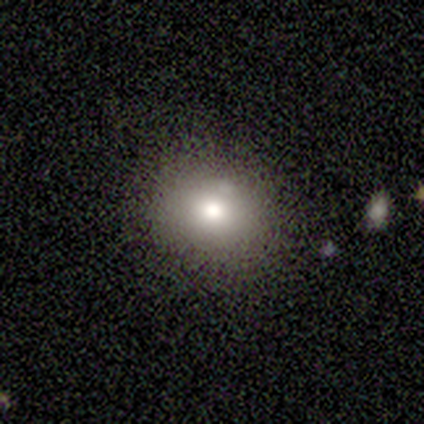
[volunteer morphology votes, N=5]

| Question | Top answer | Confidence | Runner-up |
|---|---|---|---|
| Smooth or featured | smooth | 60% | featured or disk (20%) |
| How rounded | in between | 67% | round (33%) |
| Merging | none | 100% | — |